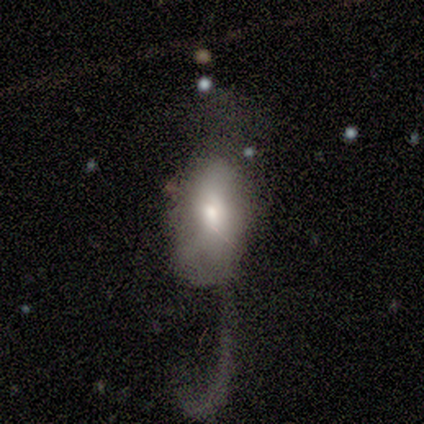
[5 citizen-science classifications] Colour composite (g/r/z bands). It shows a smooth galaxy with no disk features (60%) that is in between round and cigar-shaped (100%). Merging: major disturbance (60%).